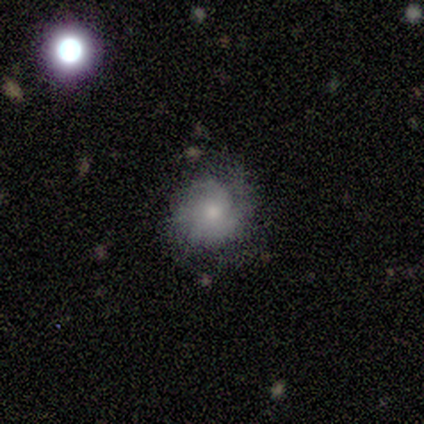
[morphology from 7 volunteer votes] Smooth or featured? featured or disk (86%)
Edge-on disk? no (100%)
Bar? weak (50%, tied with no)
Spiral arms? yes (100%)
Spiral winding? tight (67%)
Spiral arm count? 2 (50%)
Bulge size? small (67%)
Merging? none (71%)